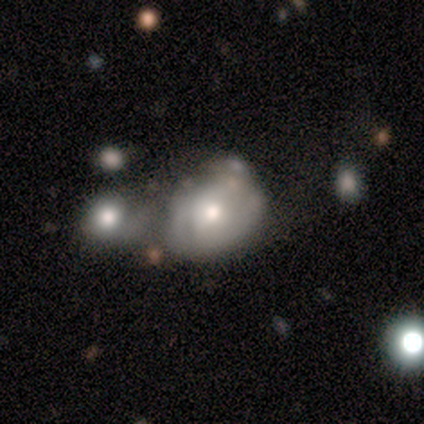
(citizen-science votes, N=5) Overall: featured or disk (60%; smooth 40%). Edge-on disk: no (100%). Bar: no (67%; weak 33%). Spiral arms: yes (67%; no 33%). Spiral arm count: can't tell (100%). Spiral winding: tight (50%, tied with medium). Bulge size: moderate (100%). Merging: merger (60%; minor disturbance 20%).